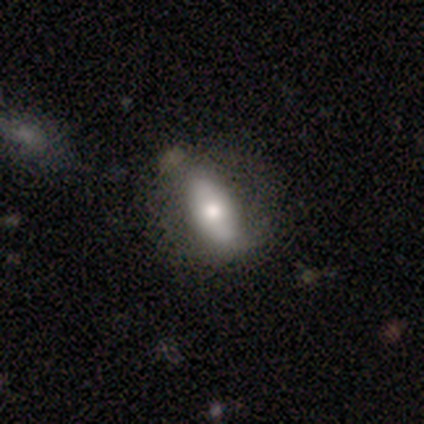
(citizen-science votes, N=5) Morphology: type=featured or disk (60%); edge-on=no (100%); bar=no (67%); spiral arms=no (67%); bulge=moderate (100%); merging=none (80%).